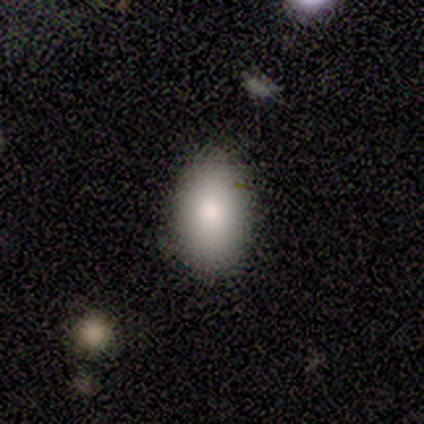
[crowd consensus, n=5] This appears to be a smooth galaxy with no disk features (100%) that is in between round and cigar-shaped (80%). Merging: none (80%).